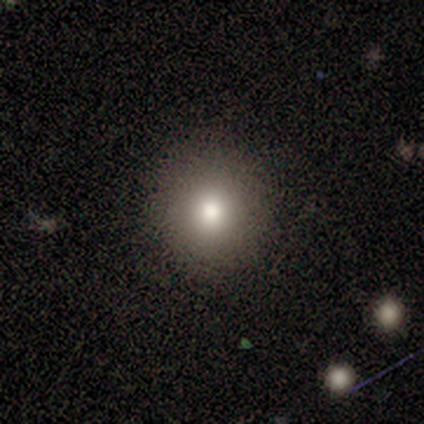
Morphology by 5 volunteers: Smooth or featured? 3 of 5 (60%) said smooth. How rounded? 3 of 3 (100%) said round. Merging? 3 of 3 (100%) said none.